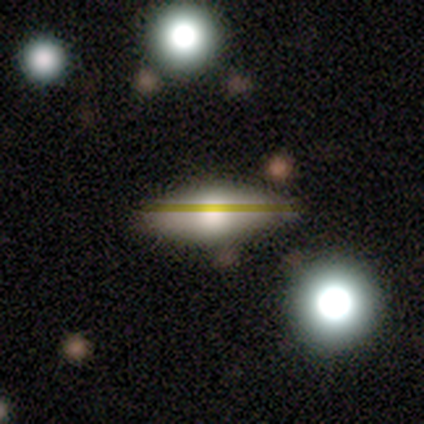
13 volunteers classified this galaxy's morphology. A smooth galaxy with no disk features (69%) that is in between round and cigar-shaped (67%).

Vote fractions:
- Smooth or featured? smooth: 69% / featured or disk: 23% / star or artifact: 8%
- How rounded? in between: 67% / cigar-shaped: 33% / round: 0%
- Merging? none: 75% / merger: 17% / minor disturbance: 8% / major disturbance: 0%